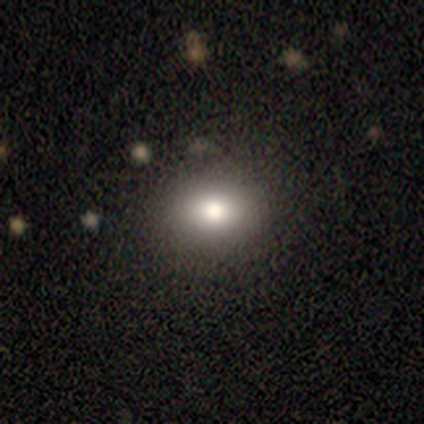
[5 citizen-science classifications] Volunteers were most divided on "how rounded" (2-way tie): round: 50%, in between: 50%, cigar-shaped: 0%. More confident: merging — none (100%); smooth or featured — smooth (80%).